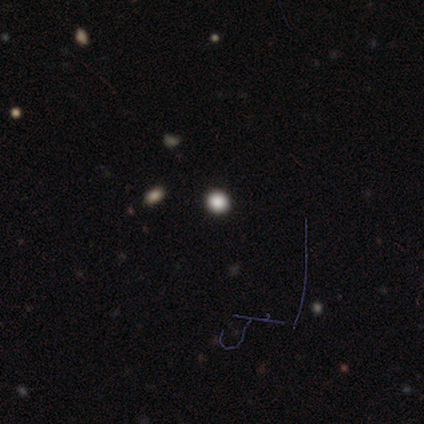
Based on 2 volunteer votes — A smooth galaxy with no disk features (50%, tied with star or artifact) that is round (100%).

Vote fractions:
- Smooth or featured? smooth: 50% (tied) / star or artifact: 50% (tied) / featured or disk: 0%
- How rounded? round: 100% / in between: 0% / cigar-shaped: 0%
- Merging? none: 100% / minor disturbance: 0% / major disturbance: 0% / merger: 0%